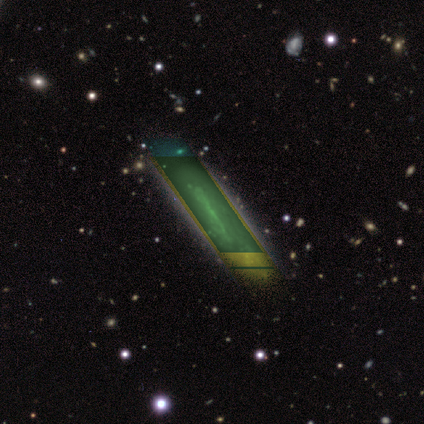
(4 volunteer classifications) A star or artifact, not a galaxy (75%).

Vote fractions:
- Smooth or featured? star or artifact: 75% / smooth: 25% / featured or disk: 0%